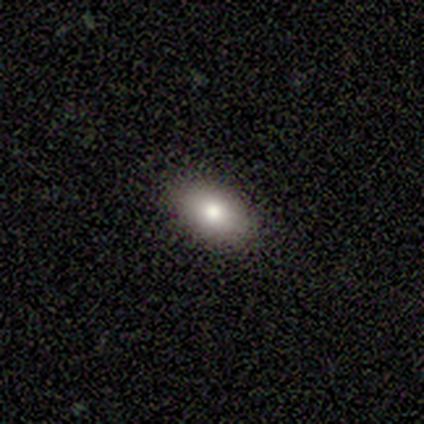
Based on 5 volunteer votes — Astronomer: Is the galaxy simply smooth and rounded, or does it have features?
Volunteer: smooth — 80%.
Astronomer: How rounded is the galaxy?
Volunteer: in between — 100%.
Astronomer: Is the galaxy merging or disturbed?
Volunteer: none — 100%.